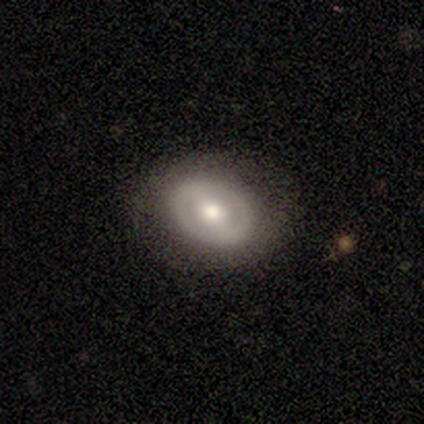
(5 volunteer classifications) smooth-or-featured: featured or disk: 80% | smooth: 20% | star or artifact: 0%
  disk-edge-on: no: 75% | yes: 25%
    bar: strong: 67% | weak: 33% | no: 0%
    has-spiral-arms: no: 67% | yes: 33%
    bulge-size: moderate: 100% | dominant: 0% | large: 0% | small: 0% | none: 0%
  merging: none: 100% | minor disturbance: 0% | major disturbance: 0% | merger: 0%